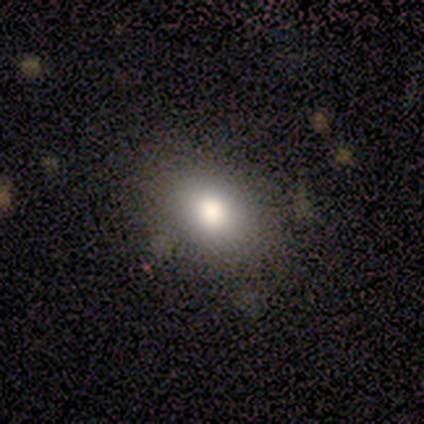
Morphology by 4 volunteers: Smooth or featured? smooth (100%)
How rounded? in between (75%)
Merging? none (100%)